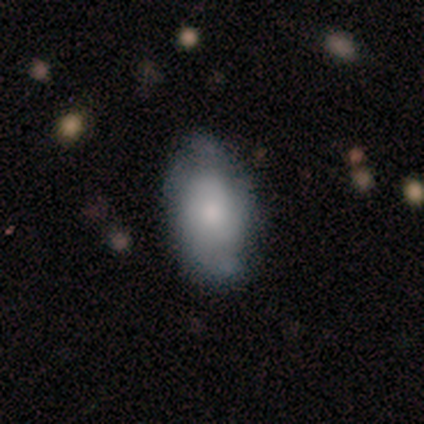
A smooth galaxy with no disk features (60%) that is in between round and cigar-shaped (100%). Merging: none (75%).